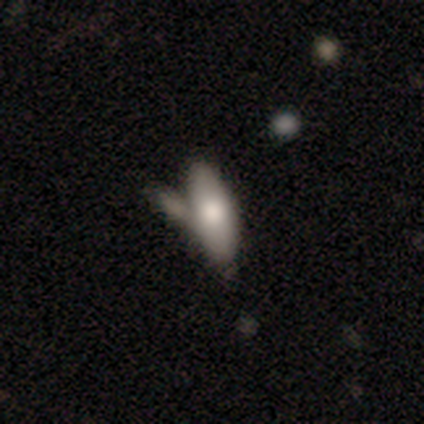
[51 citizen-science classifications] A smooth galaxy with no disk features (78%) that is in between round and cigar-shaped (68%).

Vote fractions:
- Smooth or featured? smooth: 78% / featured or disk: 20% / star or artifact: 2%
- How rounded? in between: 68% / cigar-shaped: 32% / round: 0%
- Merging? none: 52% / merger: 30% / minor disturbance: 12% / major disturbance: 6%